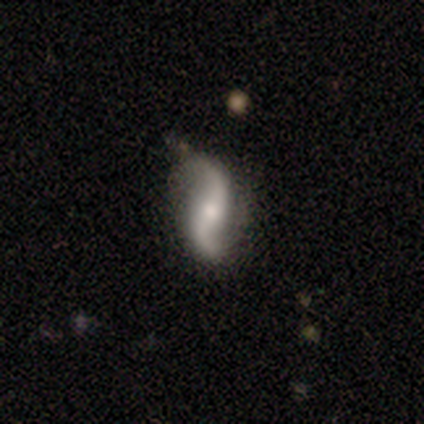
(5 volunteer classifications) Smooth or featured?
  - featured or disk: 80% *
  - smooth: 20%
  - star or artifact: 0%
Edge-on disk?
  - no: 75% *
  - yes: 25%
Bar?
  - strong: 33% * (tied)
  - weak: 33% * (tied)
  - no: 33% * (tied)
Spiral arms?
  - yes: 100% *
  - no: 0%
Spiral winding?
  - loose: 67% *
  - medium: 33%
  - tight: 0%
Spiral arm count?
  - 2: 100% *
  - 1: 0%
  - 3: 0%
  - 4: 0%
  - more than 4: 0%
  - can't tell: 0%
Bulge size?
  - moderate: 67% *
  - small: 33%
  - dominant: 0%
  - large: 0%
  - none: 0%
Merging?
  - none: 40% * (tied)
  - major disturbance: 40% * (tied)
  - minor disturbance: 20%
  - merger: 0%